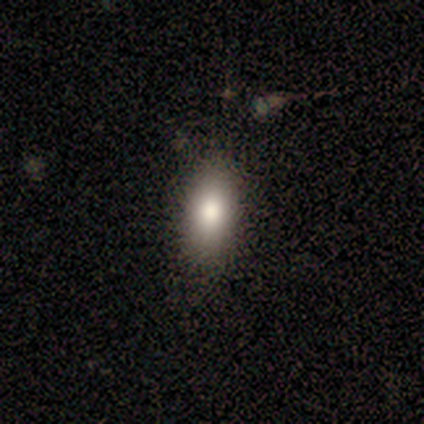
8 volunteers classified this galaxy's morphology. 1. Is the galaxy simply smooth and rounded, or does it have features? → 88% smooth, 12% featured or disk, 0% star or artifact.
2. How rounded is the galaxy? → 86% in between, 14% round, 0% cigar-shaped.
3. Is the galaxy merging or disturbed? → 75% none, 25% minor disturbance, 0% major disturbance, 0% merger.